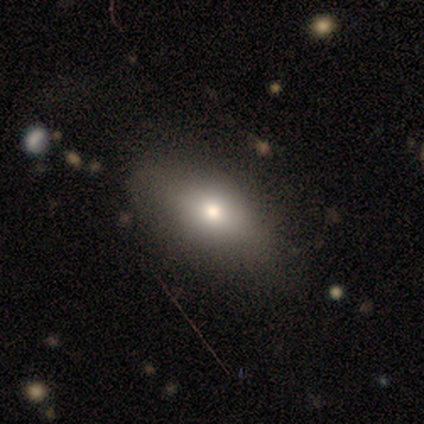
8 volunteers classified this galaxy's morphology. This appears to be a smooth galaxy with no disk features (88%) that is in between round and cigar-shaped (86%). Merging: none (88%).